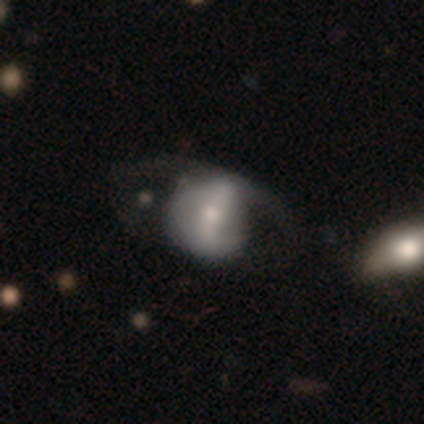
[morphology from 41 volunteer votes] smooth-or-featured: featured or disk: 59% | smooth: 32% | star or artifact: 10%
  disk-edge-on: no: 100% | yes: 0%
    bar: strong: 54% | weak: 29% | no: 17%
    has-spiral-arms: yes: 58% | no: 42%
      spiral-winding: loose: 50% | medium: 36% | tight: 14%
      spiral-arm-count: 2: 71% | can't tell: 21% | 3: 7% | 1: 0% | 4: 0% | more than 4: 0%
    bulge-size: moderate: 54% | small: 29% | none: 12% | large: 4% | dominant: 0%
  merging: none: 41% | major disturbance: 27% | minor disturbance: 24% | merger: 8%